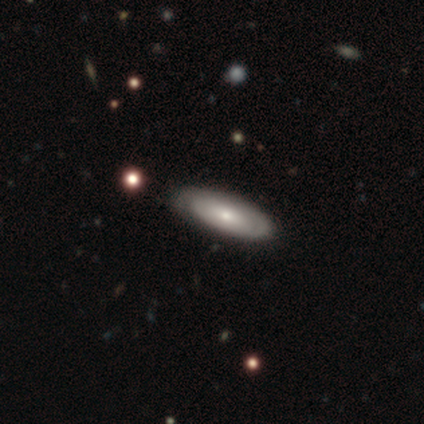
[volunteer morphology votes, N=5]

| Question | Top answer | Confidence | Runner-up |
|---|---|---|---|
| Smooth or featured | smooth | 80% | featured or disk (20%) |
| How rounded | in between | 75% | cigar-shaped (25%) |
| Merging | none | 80% | minor disturbance (20%) |